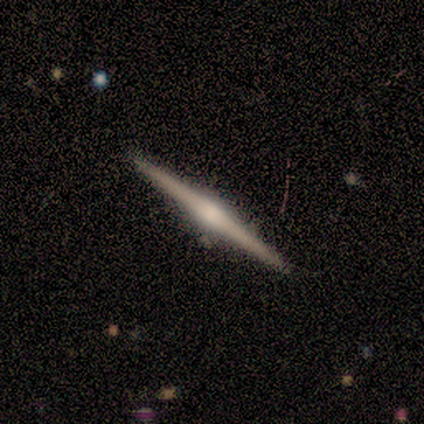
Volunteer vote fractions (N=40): Smooth or featured? 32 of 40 (80%) said featured or disk. Edge-on disk? 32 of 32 (100%) said yes. Edge-on bulge? 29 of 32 (91%) said rounded. Merging? 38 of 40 (95%) said none.